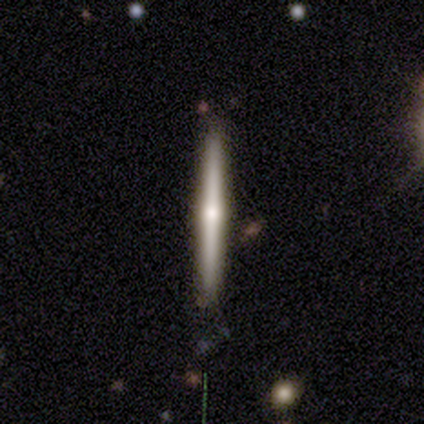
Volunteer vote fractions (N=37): Volunteers were most divided on "smooth or featured": featured or disk: 62%, smooth: 32%, star or artifact: 5%. More confident: edge-on disk — yes (100%); edge-on bulge — rounded (83%); merging — none (80%).